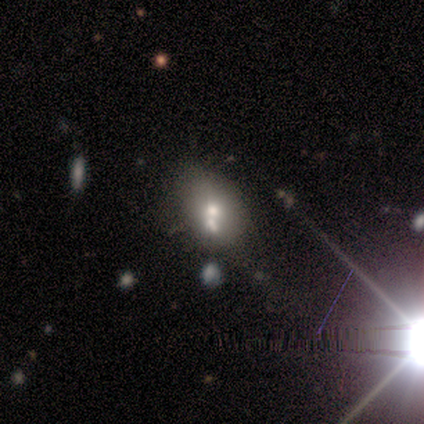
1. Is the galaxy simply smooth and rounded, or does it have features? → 43% featured or disk, 29% smooth, 29% star or artifact.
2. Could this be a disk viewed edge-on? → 100% no, 0% yes.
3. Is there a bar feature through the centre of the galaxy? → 100% no, 0% strong, 0% weak.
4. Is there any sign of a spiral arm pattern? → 100% no, 0% yes.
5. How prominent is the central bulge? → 100% small, 0% dominant, 0% large, 0% moderate, 0% none.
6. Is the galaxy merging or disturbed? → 60% none, 40% merger, 0% minor disturbance, 0% major disturbance.